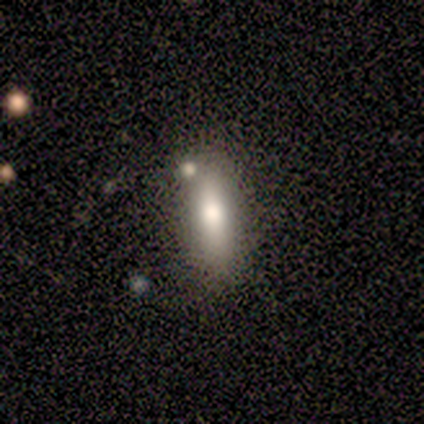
A smooth galaxy with no disk features (60%) that is cigar-shaped (67%). Merging: none (75%).